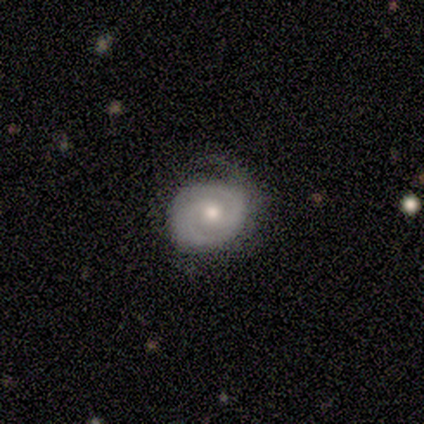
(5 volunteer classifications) Smooth or featured? featured or disk (80%)
Edge-on disk? no (100%)
Bar? weak (50%, tied with no)
Spiral arms? yes (100%)
Spiral winding? tight (75%)
Spiral arm count? 2 (75%)
Bulge size? moderate (75%)
Merging? none (50%, tied with minor disturbance)